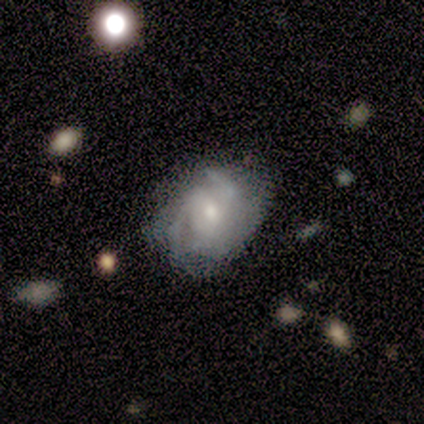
Smooth or featured? 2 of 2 (100%) said smooth. How rounded? 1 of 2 (50%, tied with in between) said round. Merging? 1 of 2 (50%, tied with minor disturbance) said none.